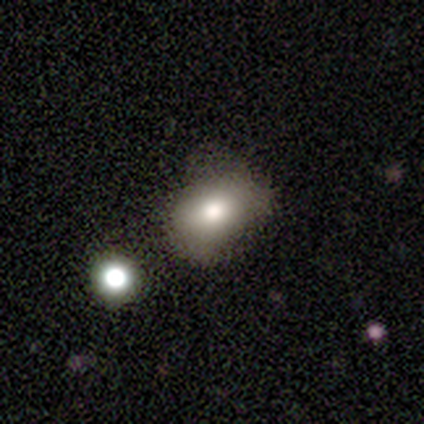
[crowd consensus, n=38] Smooth or featured: smooth — 79% (featured or disk — 13%)
How rounded: in between — 83% (round — 17%)
Merging: minor disturbance — 51% (none — 37%)